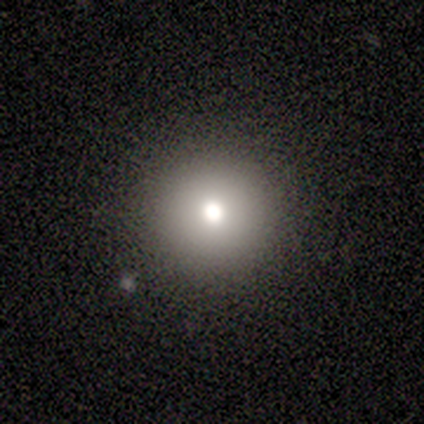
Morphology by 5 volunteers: A smooth galaxy with no disk features (100%) that is round (100%).

Vote fractions:
- Smooth or featured? smooth: 100% / featured or disk: 0% / star or artifact: 0%
- How rounded? round: 100% / in between: 0% / cigar-shaped: 0%
- Merging? none: 80% / major disturbance: 20% / minor disturbance: 0% / merger: 0%